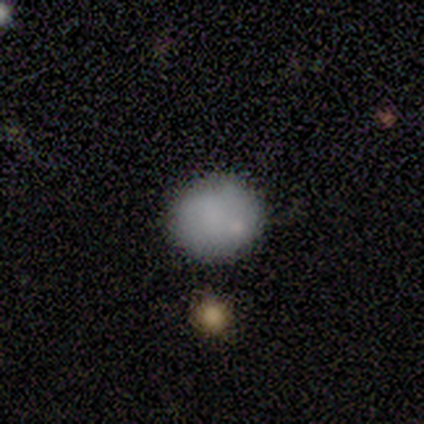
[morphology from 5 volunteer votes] Smooth or featured? 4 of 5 (80%) said smooth. How rounded? 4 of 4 (100%) said round. Merging? 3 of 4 (75%) said none.